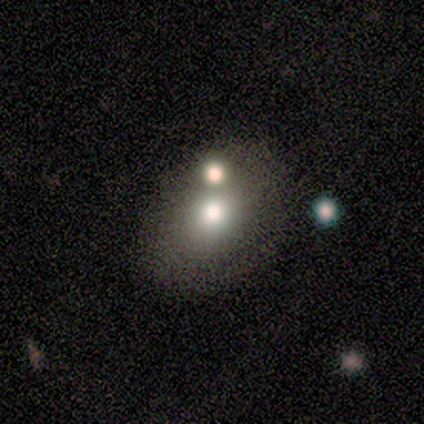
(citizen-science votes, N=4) A smooth galaxy with no disk features (50%, tied with star or artifact) that is round (50%, tied with in between).

Vote fractions:
- Smooth or featured? smooth: 50% (tied) / star or artifact: 50% (tied) / featured or disk: 0%
- How rounded? round: 50% (tied) / in between: 50% (tied) / cigar-shaped: 0%
- Merging? none: 50% (tied) / merger: 50% (tied) / minor disturbance: 0% / major disturbance: 0%